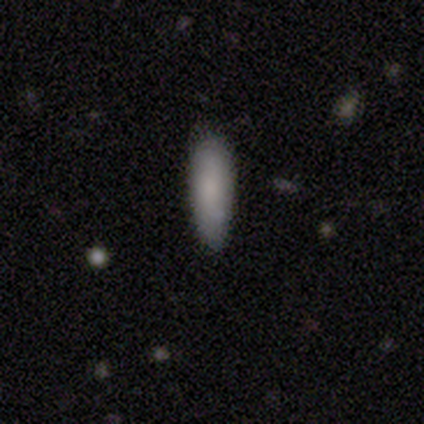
Overall: smooth (83%). How rounded: cigar-shaped (80%). Merging: none (50%, tied with minor disturbance).